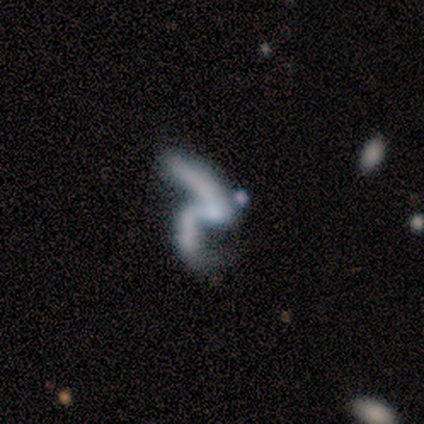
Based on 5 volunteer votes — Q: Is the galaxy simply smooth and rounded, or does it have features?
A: featured or disk — 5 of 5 (100%).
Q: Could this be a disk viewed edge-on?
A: no — 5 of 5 (100%).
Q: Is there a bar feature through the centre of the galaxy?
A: no — 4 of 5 (80%).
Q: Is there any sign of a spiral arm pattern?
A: yes — 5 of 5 (100%).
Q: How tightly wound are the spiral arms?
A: loose — 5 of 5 (100%).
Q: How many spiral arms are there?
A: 2 — 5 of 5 (100%).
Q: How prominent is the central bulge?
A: none — 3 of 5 (60%).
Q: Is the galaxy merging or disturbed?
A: major disturbance — 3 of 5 (60%).